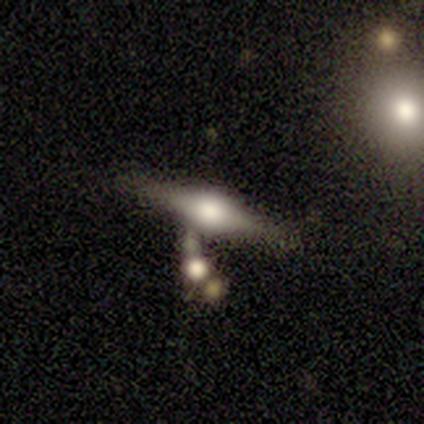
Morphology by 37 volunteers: type=featured or disk (59%); edge-on=yes (100%); edge-on bulge=rounded (86%); merging=none (53%).